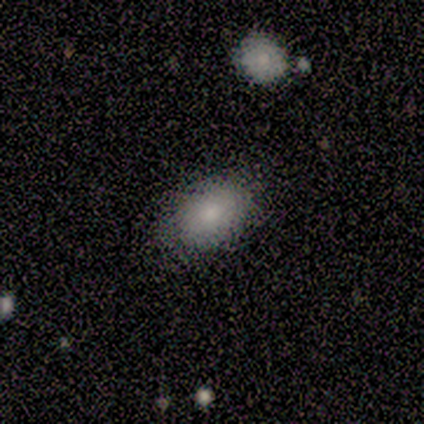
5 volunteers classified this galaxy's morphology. This appears to be a smooth galaxy with no disk features (80%) that is in between round and cigar-shaped (75%). Merging: none (80%).